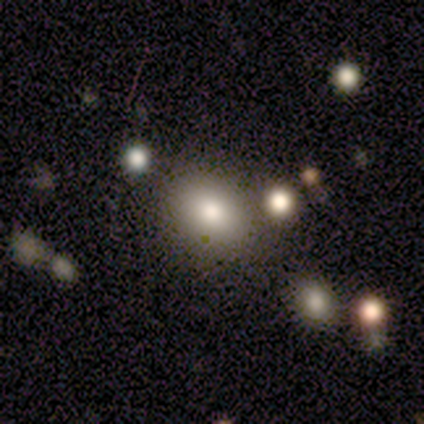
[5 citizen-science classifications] Volunteers were most divided on "smooth or featured": star or artifact: 80%, featured or disk: 20%, smooth: 0%.